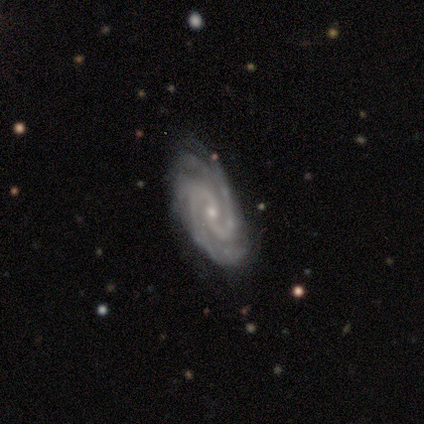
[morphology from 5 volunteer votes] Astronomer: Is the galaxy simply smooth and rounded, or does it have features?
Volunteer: featured or disk — 100%.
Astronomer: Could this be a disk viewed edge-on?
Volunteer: no — 100%.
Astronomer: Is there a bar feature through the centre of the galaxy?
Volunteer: no — 100%.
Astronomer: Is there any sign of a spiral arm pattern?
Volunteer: yes — 100%.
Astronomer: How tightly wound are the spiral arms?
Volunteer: tight — 40%, tied with loose at 40%.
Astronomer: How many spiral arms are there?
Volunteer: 2 — 80%.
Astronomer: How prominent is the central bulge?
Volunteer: small — 80%.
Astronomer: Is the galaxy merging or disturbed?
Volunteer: none — 100%.